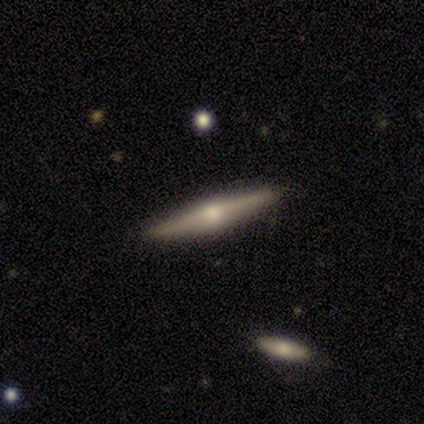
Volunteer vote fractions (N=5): Smooth or featured: featured or disk — 80% (smooth — 20%)
Edge-on disk: yes — 100%
Edge-on bulge: rounded — 100%
Merging: none — 80% (merger — 20%)